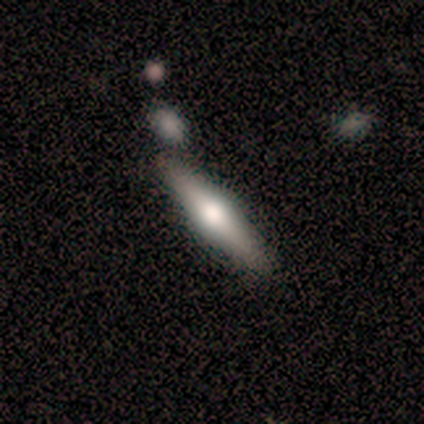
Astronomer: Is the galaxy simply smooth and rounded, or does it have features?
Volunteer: smooth — 60% (runner-up: featured or disk, 40%).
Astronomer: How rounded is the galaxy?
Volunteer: cigar-shaped — 100%.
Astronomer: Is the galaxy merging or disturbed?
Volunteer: none — 40%, tied with merger at 40%.